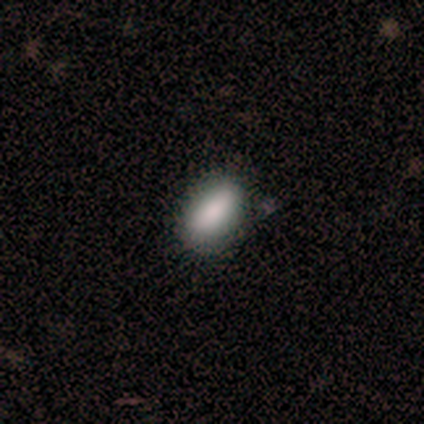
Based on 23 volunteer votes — Volunteers were most divided on "merging": none: 76%, minor disturbance: 14%, merger: 10%, major disturbance: 0%. More confident: smooth or featured — smooth (87%); how rounded — in between (80%).